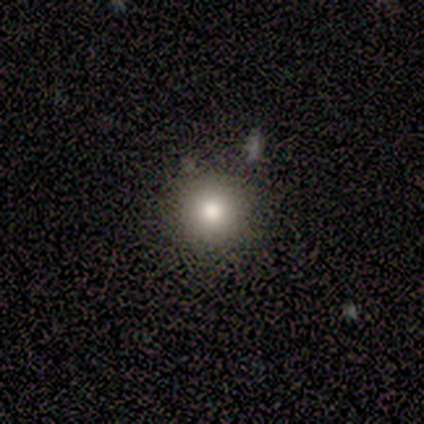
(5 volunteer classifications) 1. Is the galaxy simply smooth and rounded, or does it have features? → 100% smooth, 0% featured or disk, 0% star or artifact.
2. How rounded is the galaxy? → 100% round, 0% in between, 0% cigar-shaped.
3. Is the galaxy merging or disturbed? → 100% none, 0% minor disturbance, 0% major disturbance, 0% merger.